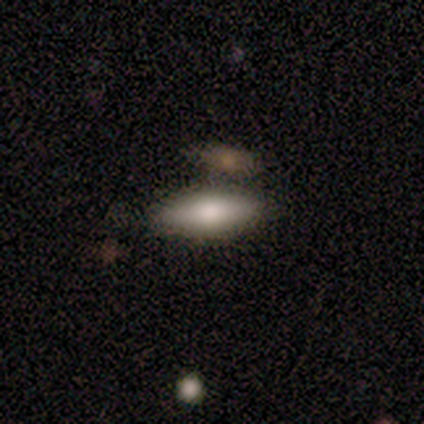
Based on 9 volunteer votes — This is likely a smooth galaxy (67%). How rounded: likely in between (67%). Merging: likely none (62%).